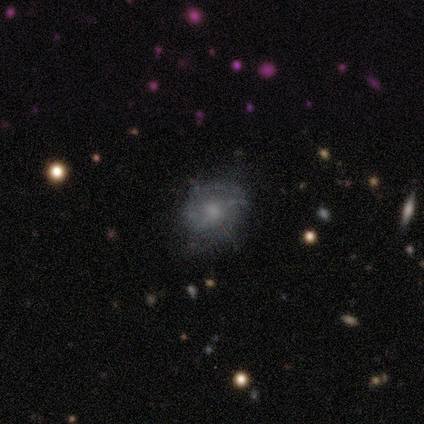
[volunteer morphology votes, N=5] featured or disk 40% (tied), star or artifact 40% (tied), smooth 20%. Down the decision tree: edge-on disk — no (100%); bar — weak (50%, tied with no); spiral arms — no (100%); bulge size — small (50%, tied with none); merging — none (67%).